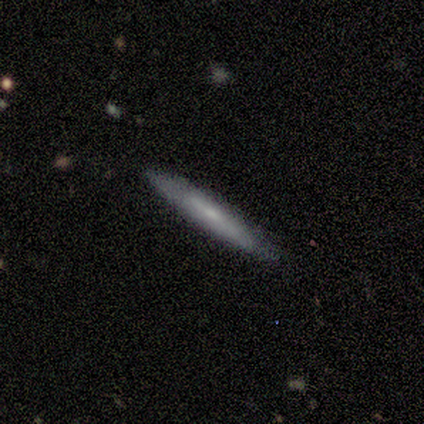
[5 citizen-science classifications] featured or disk 60%, smooth 40%, star or artifact 0%. Down the decision tree: edge-on disk — yes (100%); edge-on bulge — rounded (67%); merging — none (80%).